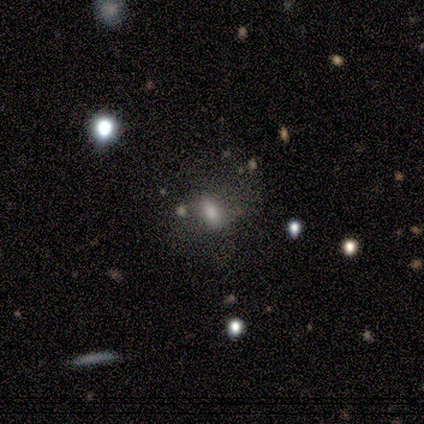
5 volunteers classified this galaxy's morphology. Volunteers were most divided on "smooth or featured": smooth: 60%, featured or disk: 40%, star or artifact: 0%. Remaining: how rounded — round (67%); merging — minor disturbance (40%).